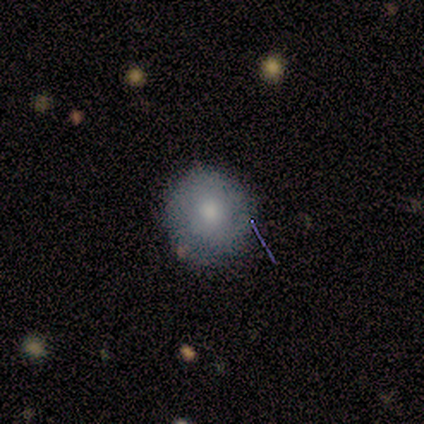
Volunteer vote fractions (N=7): Smooth or featured? 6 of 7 (86%) said smooth. How rounded? 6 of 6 (100%) said round. Merging? 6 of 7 (86%) said none.